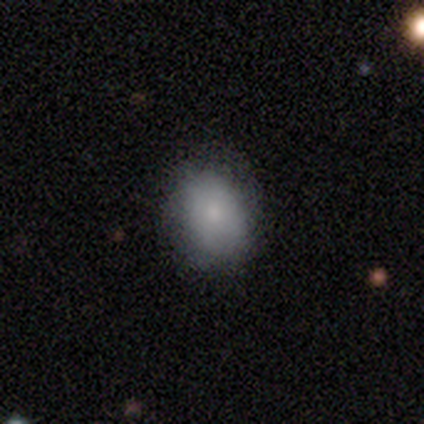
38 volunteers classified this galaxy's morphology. Smooth or featured? 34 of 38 (89%) said smooth. How rounded? 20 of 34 (59%) said in between. Merging? 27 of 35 (77%) said none.